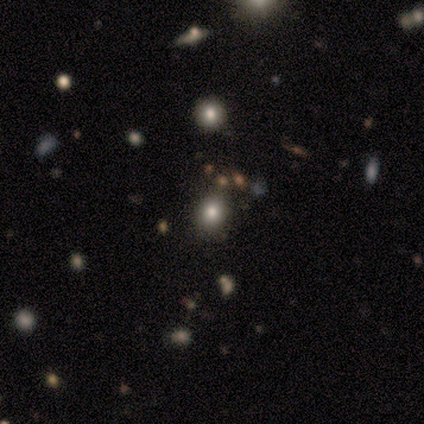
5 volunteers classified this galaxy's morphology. This appears to be a smooth galaxy with no disk features (80%) that is round (75%). Merging: none (80%).